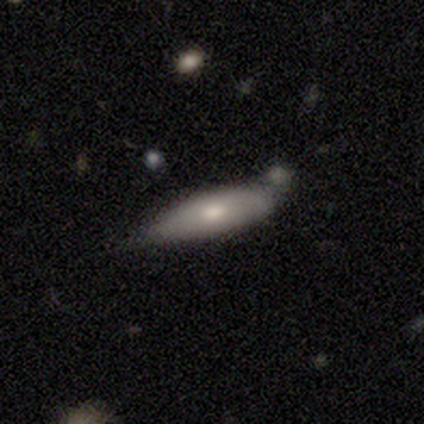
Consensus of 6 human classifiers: Volunteers were most divided on "merging" (2-way tie): none: 33%, merger: 33%, minor disturbance: 17%, major disturbance: 17%. More confident: smooth or featured — smooth (67%); how rounded — cigar-shaped (50%).